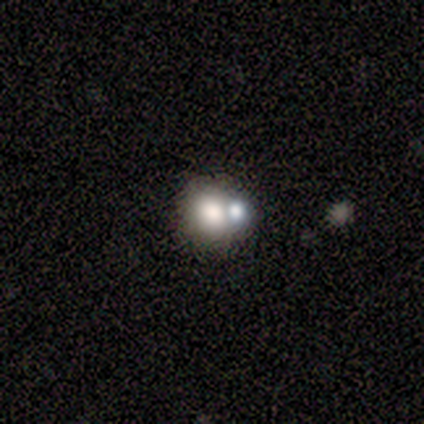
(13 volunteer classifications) smooth 62%, star or artifact 23%, featured or disk 15%. Down the decision tree: how rounded — round (75%); merging — merger (60%).